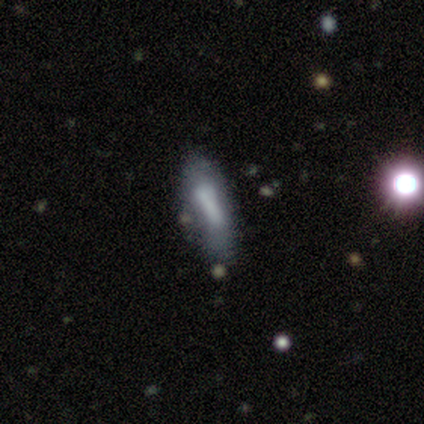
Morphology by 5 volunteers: A smooth galaxy with no disk features (80%) that is in between round and cigar-shaped (50%, tied with cigar-shaped). Merging: none (60%).